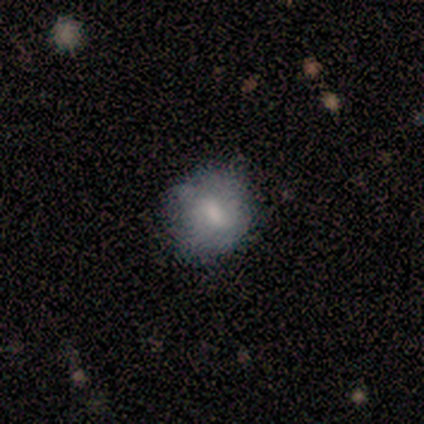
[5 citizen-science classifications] This is clearly a smooth galaxy (80%). How rounded: likely round (75%). Merging: clearly none (100%).